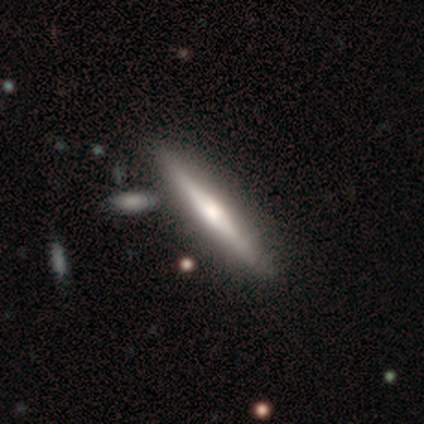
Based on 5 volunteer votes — Smooth or featured? featured or disk (80%)
Edge-on disk? yes (100%)
Edge-on bulge? boxy (50%, tied with rounded)
Merging? none (80%)